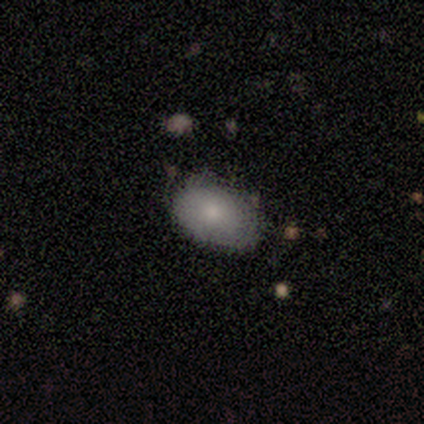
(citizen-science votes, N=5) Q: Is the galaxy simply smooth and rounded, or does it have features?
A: smooth — 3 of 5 (60%).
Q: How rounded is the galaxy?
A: in between — 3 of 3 (100%).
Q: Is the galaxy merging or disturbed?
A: none — 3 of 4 (75%).